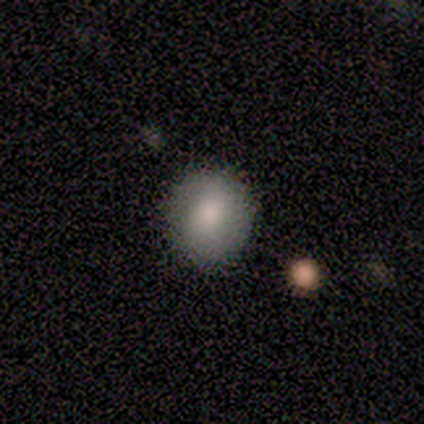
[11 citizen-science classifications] Overall: smooth (91%). How rounded: round (100%). Merging: none (100%).